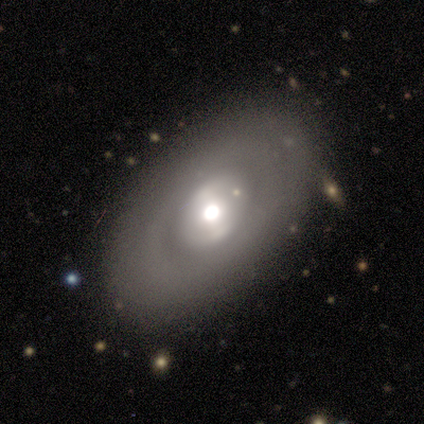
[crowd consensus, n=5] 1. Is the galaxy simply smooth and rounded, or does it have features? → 100% featured or disk, 0% smooth, 0% star or artifact.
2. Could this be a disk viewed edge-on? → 80% no, 20% yes.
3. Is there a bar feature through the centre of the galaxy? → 75% no, 25% weak, 0% strong.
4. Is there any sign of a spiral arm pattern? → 100% no, 0% yes.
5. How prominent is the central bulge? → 50% moderate (tied), 50% small (tied), 0% dominant, 0% large, 0% none.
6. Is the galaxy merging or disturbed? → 80% none, 20% minor disturbance, 0% major disturbance, 0% merger.